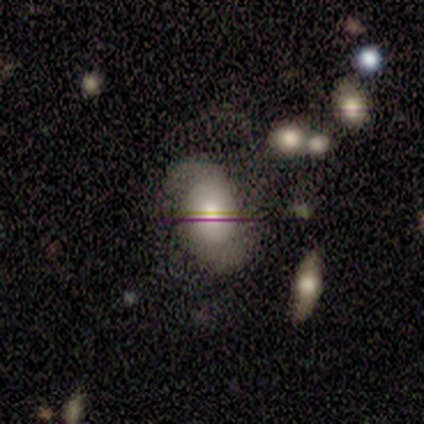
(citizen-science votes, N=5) Smooth or featured? 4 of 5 (80%) said featured or disk. Edge-on disk? 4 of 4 (100%) said no. Bar? 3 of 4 (75%) said no. Spiral arms? 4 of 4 (100%) said yes. Spiral winding? 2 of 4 (50%) said medium. Spiral arm count? 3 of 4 (75%) said 2. Bulge size? 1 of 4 (25%, tied with large, moderate and small) said dominant. Merging? 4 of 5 (80%) said none.